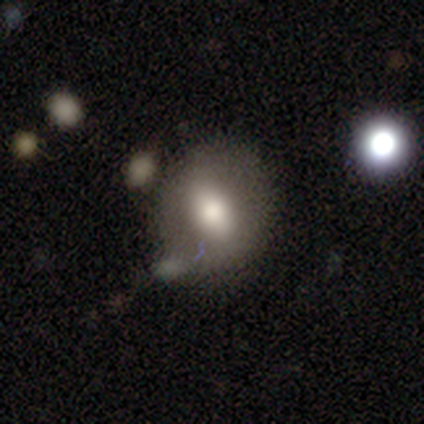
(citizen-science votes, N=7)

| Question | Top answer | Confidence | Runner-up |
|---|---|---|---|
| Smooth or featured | smooth | 71% | featured or disk (29%) |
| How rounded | in between | 60% | round (40%) |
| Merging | none | 71% | minor disturbance (14%) |